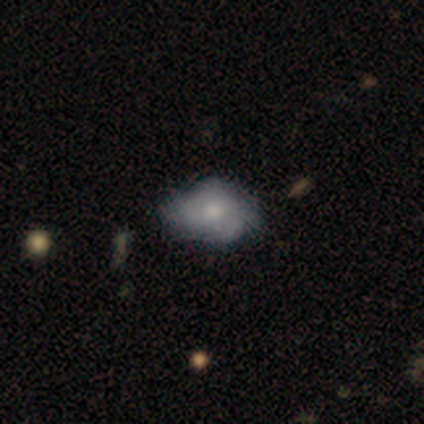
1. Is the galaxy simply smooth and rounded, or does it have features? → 80% smooth, 20% star or artifact, 0% featured or disk.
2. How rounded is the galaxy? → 100% in between, 0% round, 0% cigar-shaped.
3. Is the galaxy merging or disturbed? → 100% none, 0% minor disturbance, 0% major disturbance, 0% merger.